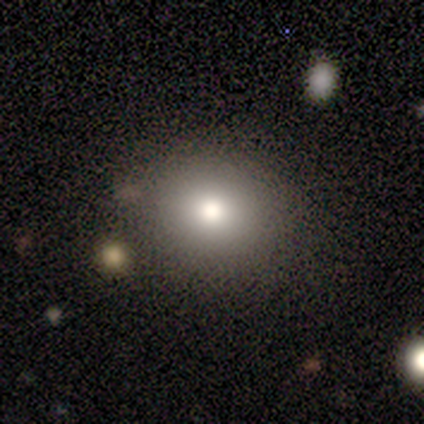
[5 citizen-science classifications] Smooth or featured: smooth — 60% (star or artifact — 40%)
How rounded: round — 100%
Merging: none — 100%